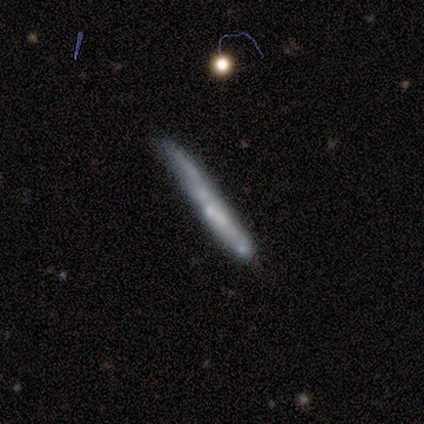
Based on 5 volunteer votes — A smooth galaxy with no disk features (60%) that is cigar-shaped (100%).

Vote fractions:
- Smooth or featured? smooth: 60% / featured or disk: 40% / star or artifact: 0%
- How rounded? cigar-shaped: 100% / round: 0% / in between: 0%
- Merging? none: 80% / minor disturbance: 20% / major disturbance: 0% / merger: 0%